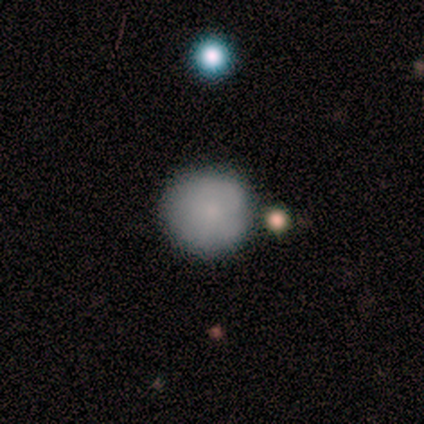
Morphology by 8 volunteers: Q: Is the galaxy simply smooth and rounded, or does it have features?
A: smooth — 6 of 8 (75%).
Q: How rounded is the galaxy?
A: round — 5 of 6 (83%).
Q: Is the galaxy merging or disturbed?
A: none — 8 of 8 (100%).